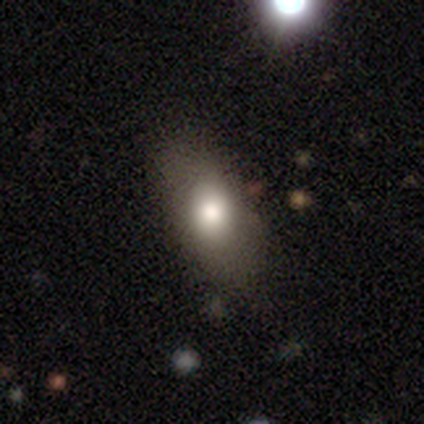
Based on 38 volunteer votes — Q: Smooth or featured?
A: smooth (84%); runner-up: featured or disk (11%)
Q: How rounded?
A: in between (94%); runner-up: round (3%)
Q: Merging?
A: none (86%); runner-up: minor disturbance (11%)